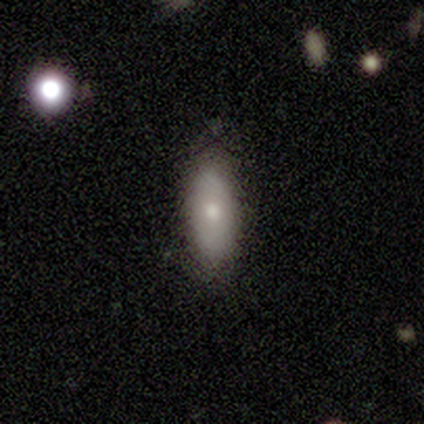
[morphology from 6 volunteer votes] Smooth or featured? smooth (67%)
How rounded? in between (100%)
Merging? none (100%)